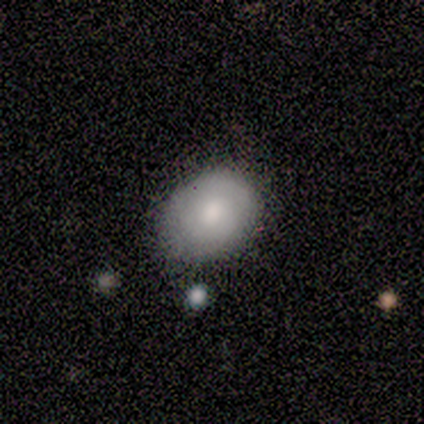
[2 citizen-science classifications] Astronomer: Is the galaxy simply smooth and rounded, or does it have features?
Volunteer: smooth — 50%, tied with featured or disk at 50%.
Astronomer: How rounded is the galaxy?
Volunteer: in between — 100%.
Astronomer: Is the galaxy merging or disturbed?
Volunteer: none — 100%.